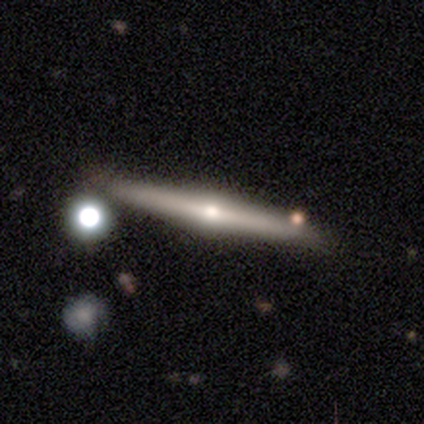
Smooth or featured: featured or disk — 80% (smooth — 20%)
Edge-on disk: yes — 100%
Edge-on bulge: rounded — 75% (none — 25%)
Merging: none — 60% (major disturbance — 20%)